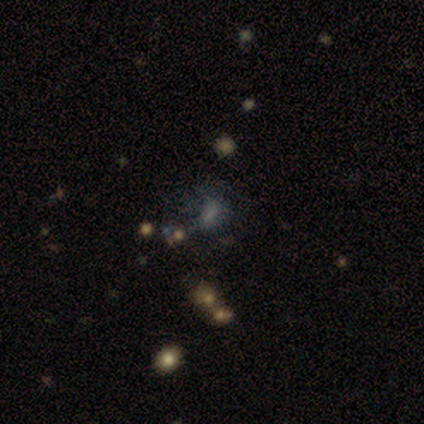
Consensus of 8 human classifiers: Smooth or featured? smooth (38%, tied with star or artifact)
How rounded? in between (100%)
Merging? major disturbance (60%)